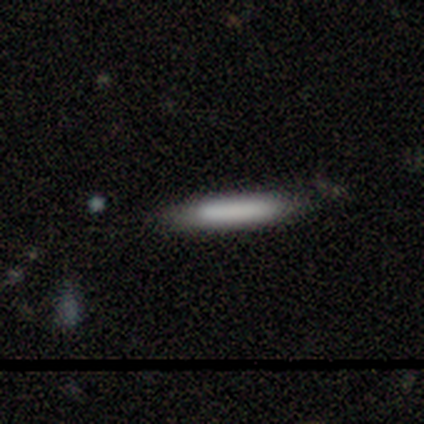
Volunteers were most divided on "merging": none: 60%, minor disturbance: 40%, major disturbance: 0%, merger: 0%. More confident: how rounded — cigar-shaped (100%); smooth or featured — smooth (80%).